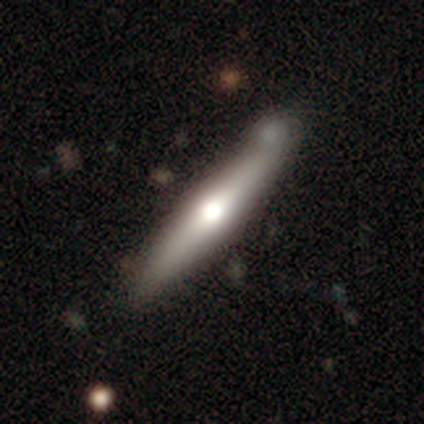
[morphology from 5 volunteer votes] A smooth galaxy with no disk features (60%) that is cigar-shaped (100%).

Vote fractions:
- Smooth or featured? smooth: 60% / featured or disk: 40% / star or artifact: 0%
- How rounded? cigar-shaped: 100% / round: 0% / in between: 0%
- Merging? none: 80% / minor disturbance: 20% / major disturbance: 0% / merger: 0%